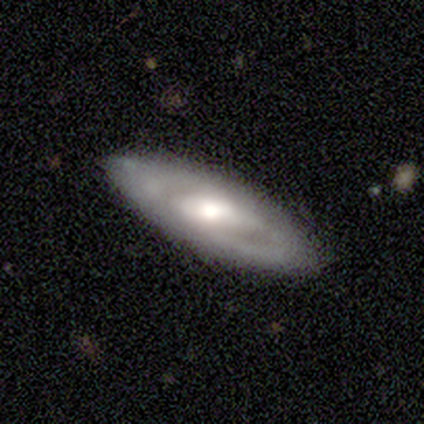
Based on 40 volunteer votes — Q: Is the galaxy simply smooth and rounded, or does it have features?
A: featured or disk — 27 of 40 (68%).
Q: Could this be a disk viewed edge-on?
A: no — 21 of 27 (78%).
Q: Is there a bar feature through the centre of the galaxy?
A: weak — 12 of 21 (57%).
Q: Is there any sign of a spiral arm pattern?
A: yes — 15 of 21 (71%).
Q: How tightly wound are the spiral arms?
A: tight — 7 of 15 (47%).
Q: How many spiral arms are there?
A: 2 — 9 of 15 (60%).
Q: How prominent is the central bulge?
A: moderate — 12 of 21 (57%).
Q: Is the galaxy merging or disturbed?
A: none — 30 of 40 (75%).